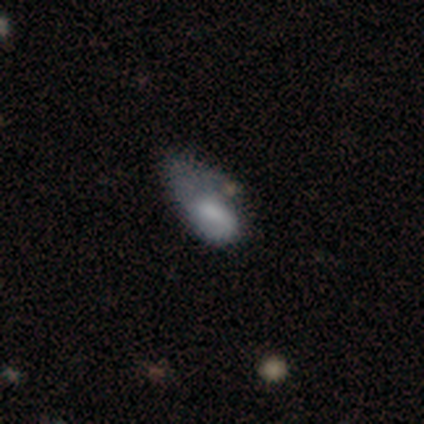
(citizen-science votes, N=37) A smooth galaxy with no disk features (54%) that is in between round and cigar-shaped (95%). Merging: major disturbance (38%).